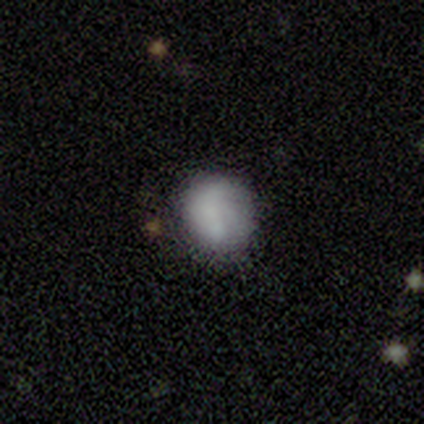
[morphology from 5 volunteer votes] Smooth or featured?
  - smooth: 60% *
  - featured or disk: 40%
  - star or artifact: 0%
How rounded?
  - round: 67% *
  - in between: 33%
  - cigar-shaped: 0%
Merging?
  - none: 80% *
  - major disturbance: 20%
  - minor disturbance: 0%
  - merger: 0%